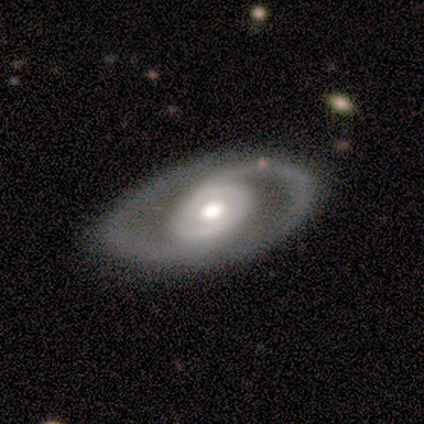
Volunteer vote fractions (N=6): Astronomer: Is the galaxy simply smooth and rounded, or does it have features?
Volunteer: featured or disk — 83%.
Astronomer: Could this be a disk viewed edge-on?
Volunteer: no — 100%.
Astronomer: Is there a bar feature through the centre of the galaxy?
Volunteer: no — 80%.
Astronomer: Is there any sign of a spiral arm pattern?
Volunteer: yes — 80%.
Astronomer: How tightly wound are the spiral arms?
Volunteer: tight — 50%.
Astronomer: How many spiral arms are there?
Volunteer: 1 — 50%, tied with 2 at 50%.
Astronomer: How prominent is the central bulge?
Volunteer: large — 40%, tied with moderate at 40%.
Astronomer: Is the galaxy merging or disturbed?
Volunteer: none — 67%.